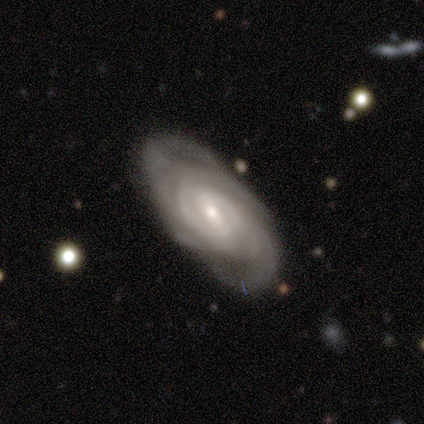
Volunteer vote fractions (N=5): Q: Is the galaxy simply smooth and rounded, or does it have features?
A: featured or disk — 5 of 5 (100%).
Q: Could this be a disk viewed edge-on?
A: no — 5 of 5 (100%).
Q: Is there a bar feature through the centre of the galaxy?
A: weak — 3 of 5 (60%).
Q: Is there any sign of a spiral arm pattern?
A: yes — 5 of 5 (100%).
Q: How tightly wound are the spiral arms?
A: tight — 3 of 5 (60%).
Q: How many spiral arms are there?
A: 2 — 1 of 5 (20%, tied with 3, 4, more than 4 and can't tell).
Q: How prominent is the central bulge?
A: moderate — 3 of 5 (60%).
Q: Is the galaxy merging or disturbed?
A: none — 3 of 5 (60%).